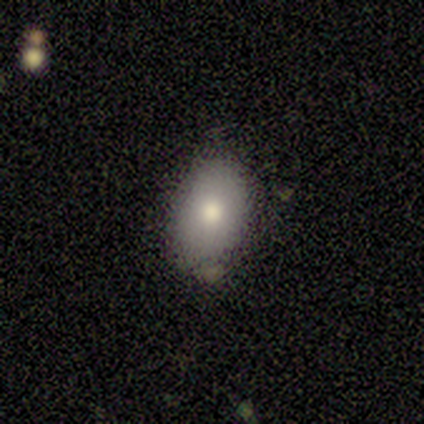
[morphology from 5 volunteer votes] type=smooth (80%); roundness=in between (100%); merging=none (50%, tied with minor disturbance).